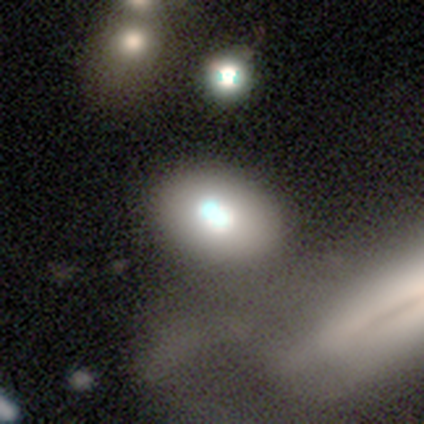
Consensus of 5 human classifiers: A smooth galaxy with no disk features (80%) that is in between round and cigar-shaped (75%).

Vote fractions:
- Smooth or featured? smooth: 80% / featured or disk: 20% / star or artifact: 0%
- How rounded? in between: 75% / round: 25% / cigar-shaped: 0%
- Merging? none: 80% / minor disturbance: 20% / major disturbance: 0% / merger: 0%